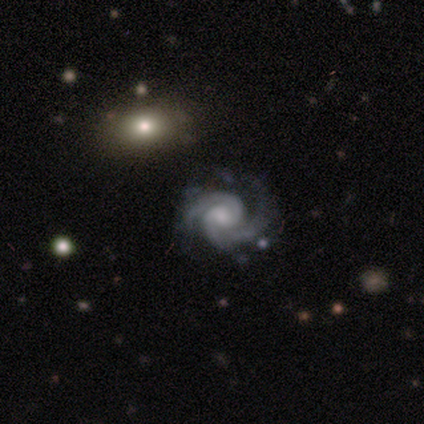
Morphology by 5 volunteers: Smooth or featured?
  - featured or disk: 100% *
  - smooth: 0%
  - star or artifact: 0%
Edge-on disk?
  - no: 100% *
  - yes: 0%
Bar?
  - no: 80% *
  - weak: 20%
  - strong: 0%
Spiral arms?
  - yes: 100% *
  - no: 0%
Spiral winding?
  - medium: 80% *
  - tight: 20%
  - loose: 0%
Spiral arm count?
  - 2: 80% *
  - 3: 20%
  - 1: 0%
  - 4: 0%
  - more than 4: 0%
  - can't tell: 0%
Bulge size?
  - moderate: 40% * (tied)
  - small: 40% * (tied)
  - none: 20%
  - dominant: 0%
  - large: 0%
Merging?
  - minor disturbance: 60% *
  - none: 40%
  - major disturbance: 0%
  - merger: 0%